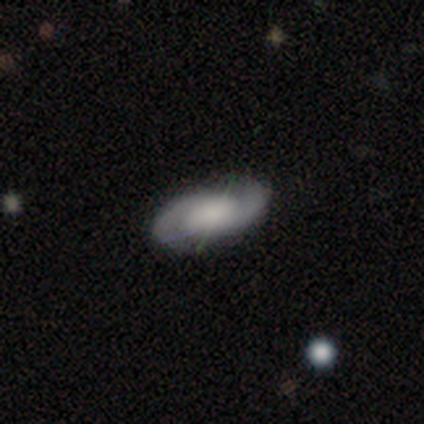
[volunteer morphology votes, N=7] Smooth or featured? featured or disk (86%)
Edge-on disk? no (100%)
Bar? weak (67%)
Spiral arms? yes (67%)
Spiral winding? tight (50%, tied with medium)
Spiral arm count? 2 (100%)
Bulge size? small (33%, tied with none)
Merging? none (100%)